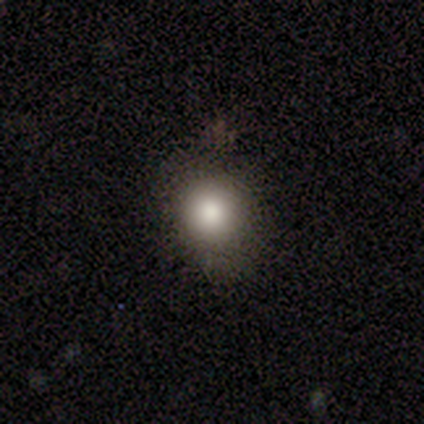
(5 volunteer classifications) A smooth galaxy with no disk features (80%) that is in between round and cigar-shaped (75%).

Vote fractions:
- Smooth or featured? smooth: 80% / star or artifact: 20% / featured or disk: 0%
- How rounded? in between: 75% / round: 25% / cigar-shaped: 0%
- Merging? none: 50% (tied) / minor disturbance: 50% (tied) / major disturbance: 0% / merger: 0%